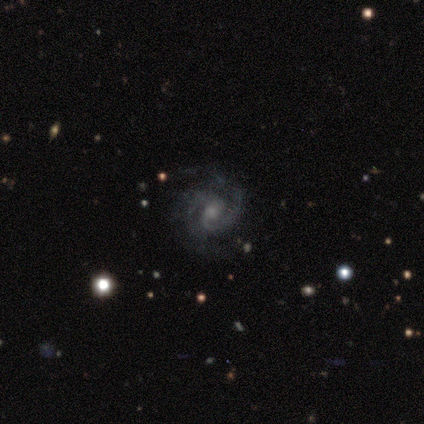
This appears to be a featured or disk galaxy (90%) with no bar (47%), 2 (79%) tight (50%) spiral arms (100%) and a small central bulge (44%). Merging: none (67%).